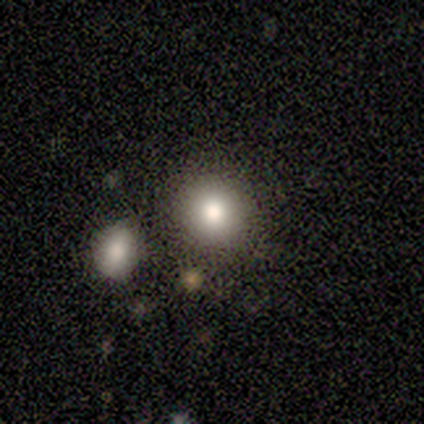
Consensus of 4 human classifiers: Overall: smooth (50%, tied with featured or disk). How rounded: round (100%). Merging: none (75%).